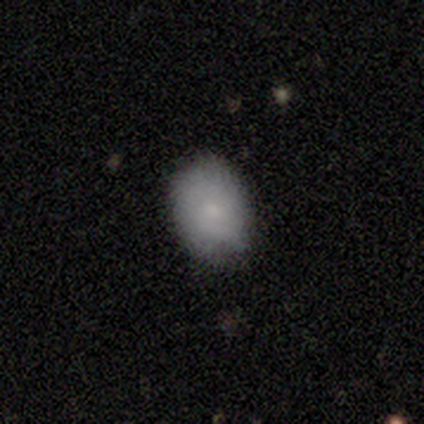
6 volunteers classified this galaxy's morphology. This appears to be a smooth galaxy with no disk features (83%) that is in between round and cigar-shaped (60%). Merging: none (67%).